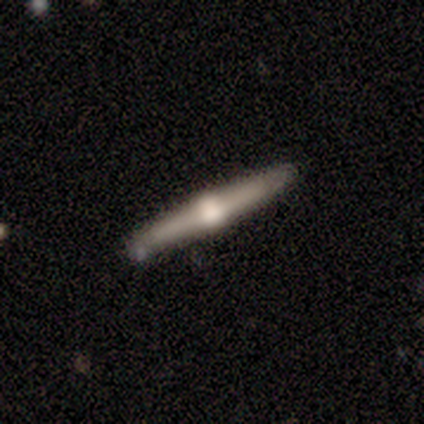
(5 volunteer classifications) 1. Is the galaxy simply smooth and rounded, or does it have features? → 80% featured or disk, 20% smooth, 0% star or artifact.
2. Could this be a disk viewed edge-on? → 100% yes, 0% no.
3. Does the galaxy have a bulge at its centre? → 100% rounded, 0% boxy, 0% none.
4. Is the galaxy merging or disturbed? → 80% none, 20% minor disturbance, 0% major disturbance, 0% merger.